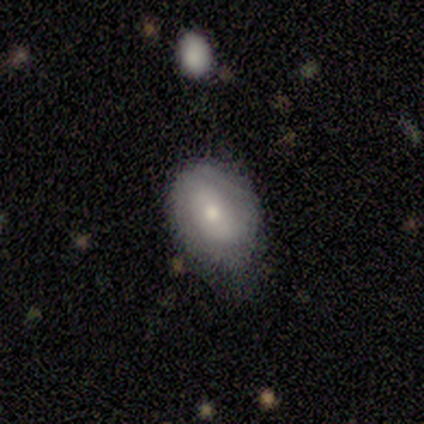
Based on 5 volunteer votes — smooth 60%, featured or disk 40%, star or artifact 0%. Down the decision tree: how rounded — in between (100%); merging — none (40%, tied with minor disturbance).